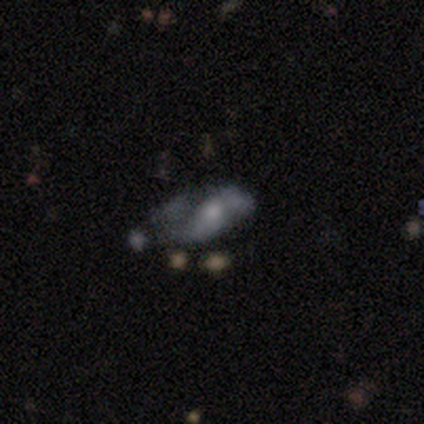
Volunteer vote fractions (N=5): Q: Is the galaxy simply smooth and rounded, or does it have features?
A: featured or disk — 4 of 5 (80%).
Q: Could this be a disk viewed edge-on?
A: no — 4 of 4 (100%).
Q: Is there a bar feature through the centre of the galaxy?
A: no — 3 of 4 (75%).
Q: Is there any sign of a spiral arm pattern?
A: yes — 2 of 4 (50%, tied with no).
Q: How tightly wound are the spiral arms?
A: tight — 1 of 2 (50%, tied with loose).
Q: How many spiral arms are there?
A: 1 — 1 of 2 (50%, tied with 2).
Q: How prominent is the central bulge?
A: small — 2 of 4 (50%).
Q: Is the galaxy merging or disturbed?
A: minor disturbance — 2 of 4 (50%).